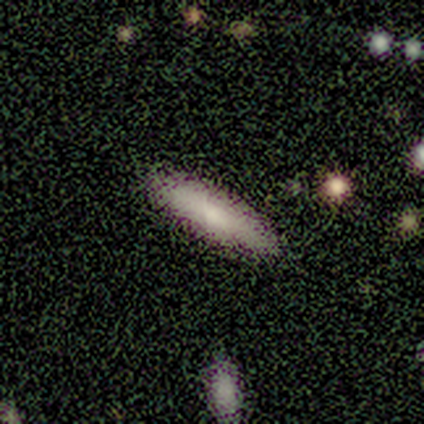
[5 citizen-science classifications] Smooth or featured? smooth (60%)
How rounded? cigar-shaped (67%)
Merging? none (80%)